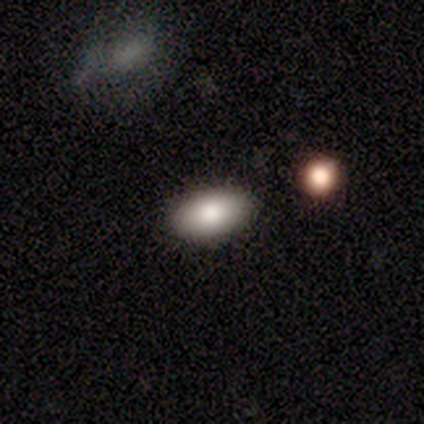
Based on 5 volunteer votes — Smooth or featured? 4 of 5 (80%) said smooth. How rounded? 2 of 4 (50%, tied with in between) said round. Merging? 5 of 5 (100%) said none.